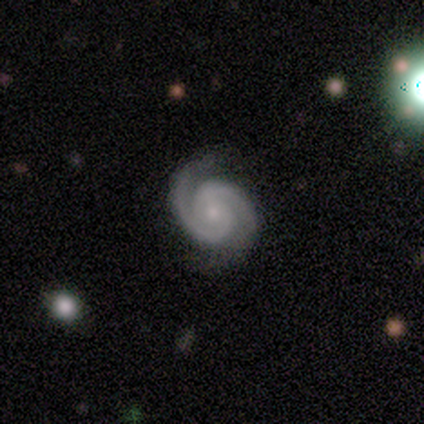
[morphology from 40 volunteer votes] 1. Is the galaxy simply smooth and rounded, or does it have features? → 92% featured or disk, 8% star or artifact, 0% smooth.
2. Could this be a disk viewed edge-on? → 100% no, 0% yes.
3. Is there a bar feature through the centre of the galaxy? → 92% no, 8% weak, 0% strong.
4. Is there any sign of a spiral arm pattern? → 100% yes, 0% no.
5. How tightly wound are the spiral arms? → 65% tight, 30% medium, 5% loose.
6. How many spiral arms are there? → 92% 2, 5% can't tell, 3% 1, 0% 3, 0% 4, 0% more than 4.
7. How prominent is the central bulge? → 81% small, 11% none, 8% moderate, 0% dominant, 0% large.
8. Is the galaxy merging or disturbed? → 84% none, 16% minor disturbance, 0% major disturbance, 0% merger.